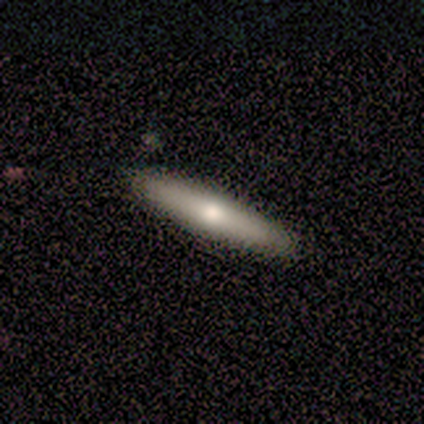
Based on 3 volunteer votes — Q: Smooth or featured?
A: smooth (67%); runner-up: featured or disk (33%)
Q: How rounded?
A: in between (50%); tied with: cigar-shaped (50%)
Q: Merging?
A: none (100%)